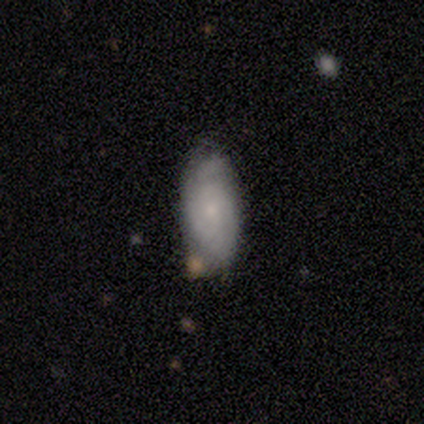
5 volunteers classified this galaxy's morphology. type=smooth (60%); roundness=in between (100%); merging=minor disturbance (60%).